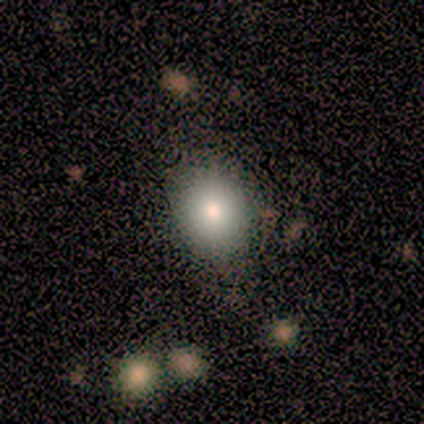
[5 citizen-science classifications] Smooth or featured? smooth (80%)
How rounded? round (50%, tied with in between)
Merging? none (100%)